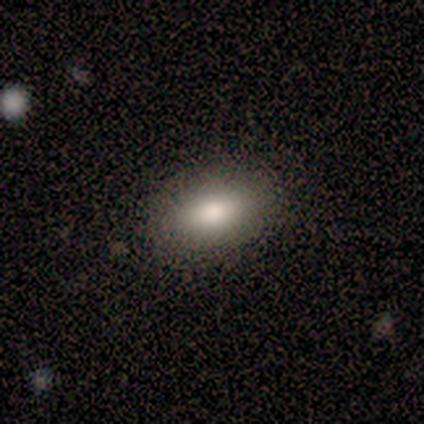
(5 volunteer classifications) This is clearly a smooth galaxy (100%). How rounded: clearly in between (80%). Merging: clearly none (100%).